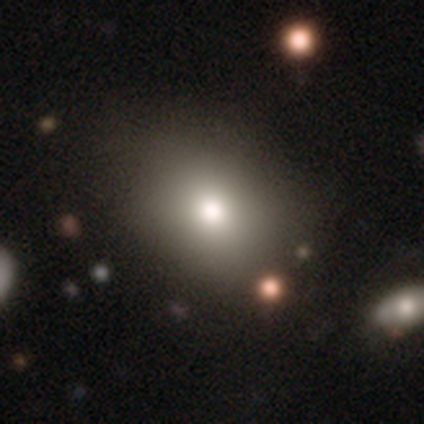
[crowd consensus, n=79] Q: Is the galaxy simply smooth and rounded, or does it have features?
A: smooth — 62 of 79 (78%).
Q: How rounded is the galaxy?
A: in between — 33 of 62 (53%).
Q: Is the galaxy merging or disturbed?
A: none — 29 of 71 (41%).